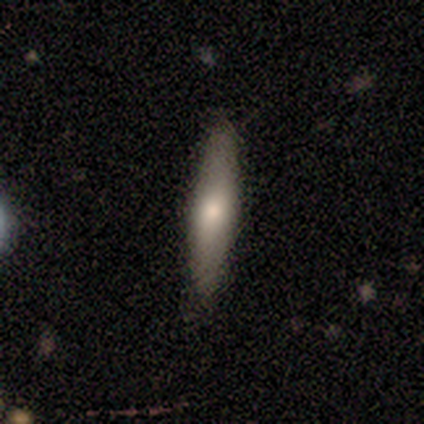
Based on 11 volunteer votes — Smooth or featured? 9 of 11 (82%) said smooth. How rounded? 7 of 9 (78%) said cigar-shaped. Merging? 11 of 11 (100%) said none.